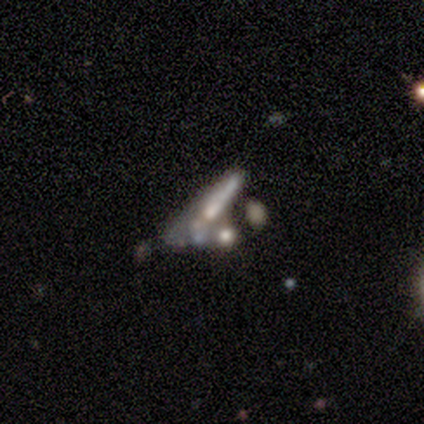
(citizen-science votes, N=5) This is clearly a smooth galaxy (80%). How rounded: likely cigar-shaped (75%). Merging: marginally minor disturbance (40%, tied with merger).